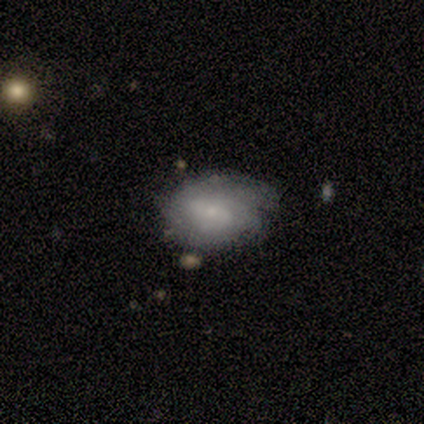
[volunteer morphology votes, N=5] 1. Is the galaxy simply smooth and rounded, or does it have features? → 60% featured or disk, 40% smooth, 0% star or artifact.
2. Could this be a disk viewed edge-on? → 100% no, 0% yes.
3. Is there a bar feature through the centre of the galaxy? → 100% weak, 0% strong, 0% no.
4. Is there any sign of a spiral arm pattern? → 100% yes, 0% no.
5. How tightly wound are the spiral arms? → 67% tight, 33% medium, 0% loose.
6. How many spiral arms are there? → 67% can't tell, 33% 2, 0% 1, 0% 3, 0% 4, 0% more than 4.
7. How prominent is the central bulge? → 67% small, 33% moderate, 0% dominant, 0% large, 0% none.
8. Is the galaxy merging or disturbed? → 60% none, 20% minor disturbance, 20% major disturbance, 0% merger.